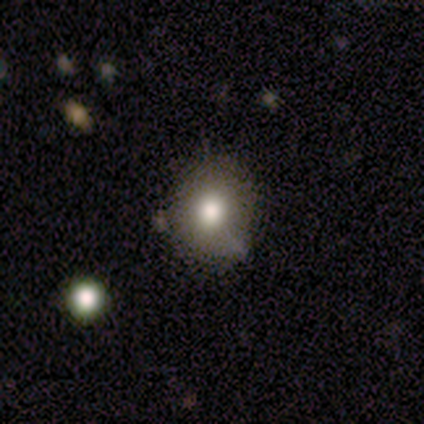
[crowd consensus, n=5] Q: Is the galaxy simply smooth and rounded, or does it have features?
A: smooth — 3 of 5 (60%).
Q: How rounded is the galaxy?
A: round — 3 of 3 (100%).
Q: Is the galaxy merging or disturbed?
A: none — 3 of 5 (60%).